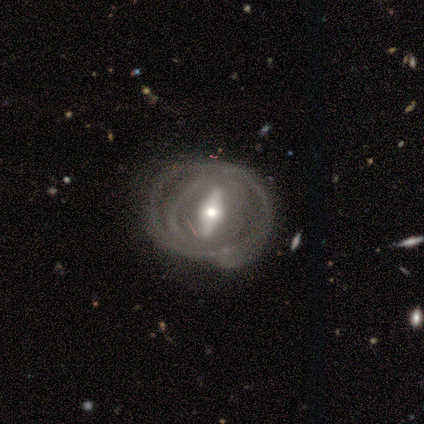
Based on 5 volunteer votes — Q: Smooth or featured?
A: featured or disk (100%)
Q: Edge-on disk?
A: no (80%); runner-up: yes (20%)
Q: Bar?
A: no (50%); runner-up: strong (25%)
Q: Spiral arms?
A: no (75%); runner-up: yes (25%)
Q: Bulge size?
A: large (25%); tied with: moderate (25%); small (25%); none (25%)
Q: Merging?
A: none (40%); tied with: minor disturbance (40%)